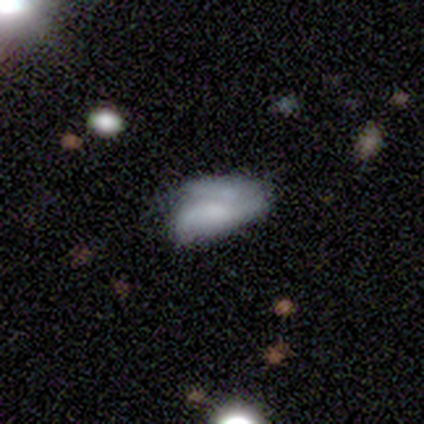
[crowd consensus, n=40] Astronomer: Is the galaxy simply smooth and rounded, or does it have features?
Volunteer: smooth — 52% (runner-up: featured or disk, 38%).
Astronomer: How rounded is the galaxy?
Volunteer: in between — 90%.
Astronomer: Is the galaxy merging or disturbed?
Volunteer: minor disturbance — 39% (runner-up: none, 28%).